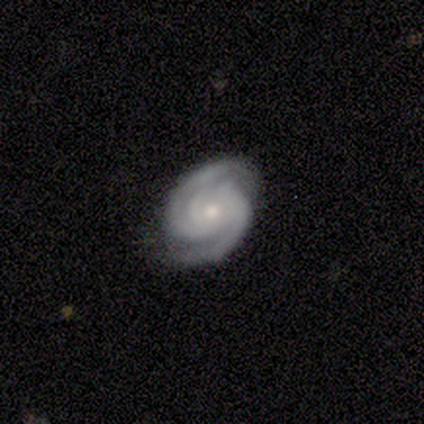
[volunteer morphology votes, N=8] featured or disk 100%, smooth 0%, star or artifact 0%. Down the decision tree: edge-on disk — no (100%); bar — no (88%); spiral arms — yes (100%); spiral arm count — 2 (100%); spiral winding — tight (75%); bulge size — small (75%); merging — none (88%).